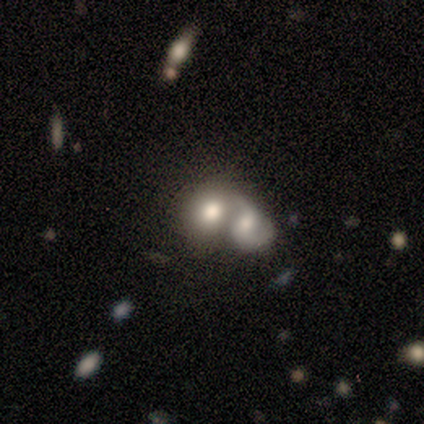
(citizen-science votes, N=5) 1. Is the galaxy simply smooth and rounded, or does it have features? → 40% smooth (tied), 40% featured or disk (tied), 20% star or artifact.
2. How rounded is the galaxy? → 100% round, 0% in between, 0% cigar-shaped.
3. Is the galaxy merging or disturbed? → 100% merger, 0% none, 0% minor disturbance, 0% major disturbance.